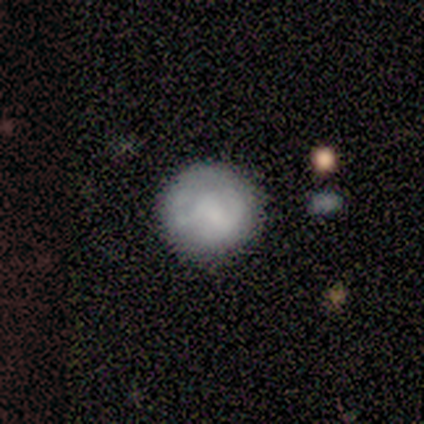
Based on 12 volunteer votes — This is likely a smooth galaxy (67%). How rounded: clearly round (88%). Merging: clearly none (83%).